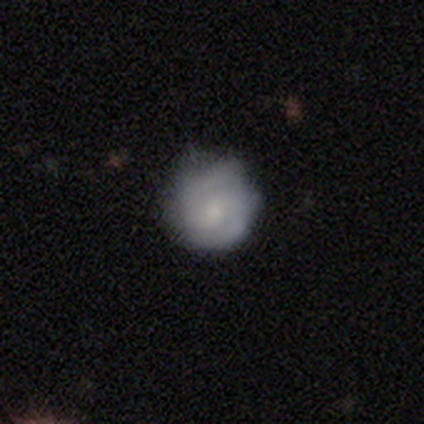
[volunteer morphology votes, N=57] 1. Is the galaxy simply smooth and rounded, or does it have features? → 58% featured or disk, 37% smooth, 5% star or artifact.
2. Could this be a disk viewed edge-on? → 97% no, 3% yes.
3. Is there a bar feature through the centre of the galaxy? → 62% no, 34% weak, 3% strong.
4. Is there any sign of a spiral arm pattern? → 75% yes, 25% no.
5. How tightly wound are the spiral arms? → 71% tight, 21% medium, 8% loose.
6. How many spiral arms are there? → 75% 2, 25% can't tell, 0% 1, 0% 3, 0% 4, 0% more than 4.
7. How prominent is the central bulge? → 44% small, 34% moderate, 12% large, 9% none, 0% dominant.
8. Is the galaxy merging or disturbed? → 74% none, 20% minor disturbance, 6% major disturbance, 0% merger.